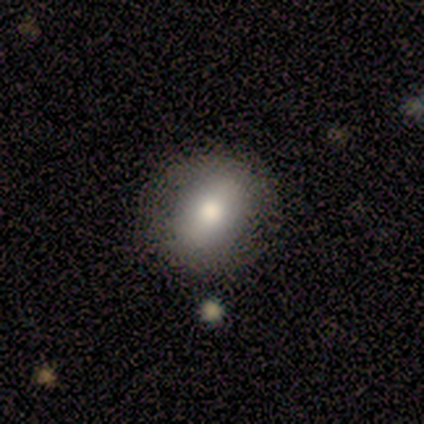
smooth 80%, star or artifact 20%, featured or disk 0%. Down the decision tree: how rounded — in between (100%); merging — none (100%).